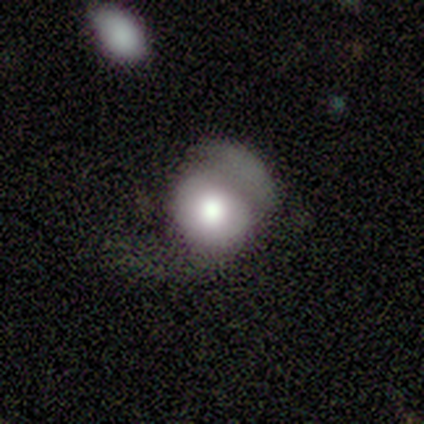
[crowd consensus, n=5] Overall: smooth (40%, tied with featured or disk). How rounded: in between (100%). Merging: none (50%; major disturbance 25%).